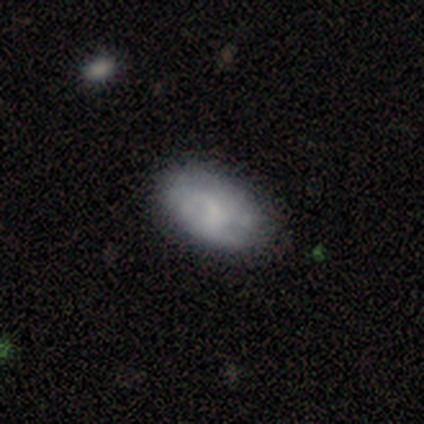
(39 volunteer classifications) Smooth or featured? smooth (67%)
How rounded? in between (100%)
Merging? none (46%)